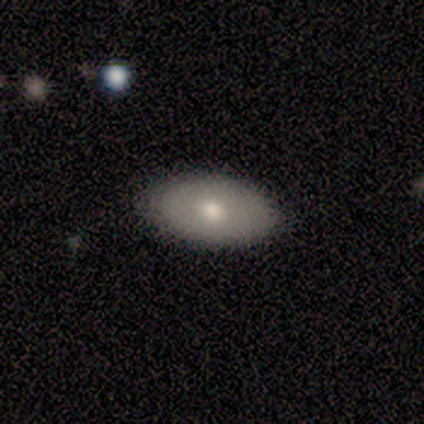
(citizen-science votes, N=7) A smooth galaxy with no disk features (71%) that is in between round and cigar-shaped (100%). Merging: none (100%).